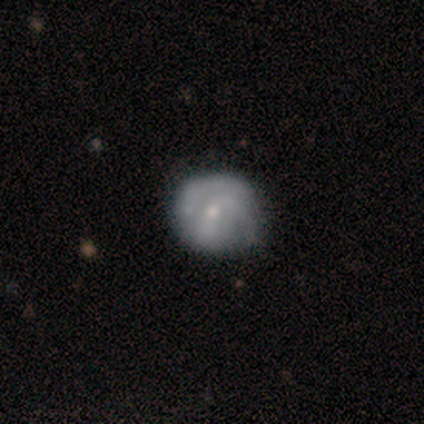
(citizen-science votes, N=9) Overall: featured or disk (89%). Edge-on disk: no (100%). Bar: no (62%; weak 38%). Spiral arms: yes (75%). Spiral arm count: can't tell (67%; 2 33%). Spiral winding: medium (50%; tight 33%). Bulge size: small (100%). Merging: none (78%).